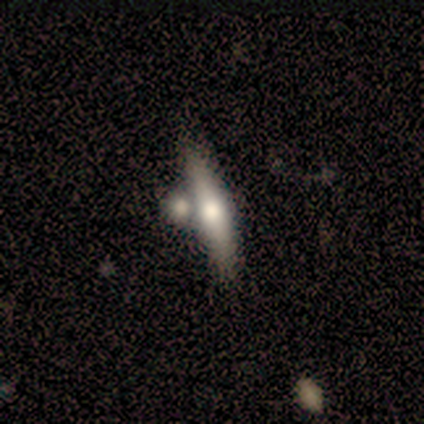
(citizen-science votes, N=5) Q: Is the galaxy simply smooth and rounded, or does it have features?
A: featured or disk — 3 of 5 (60%).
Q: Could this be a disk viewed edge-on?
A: yes — 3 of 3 (100%).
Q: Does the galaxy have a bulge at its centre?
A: rounded — 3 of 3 (100%).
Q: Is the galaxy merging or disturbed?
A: none — 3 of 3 (100%).